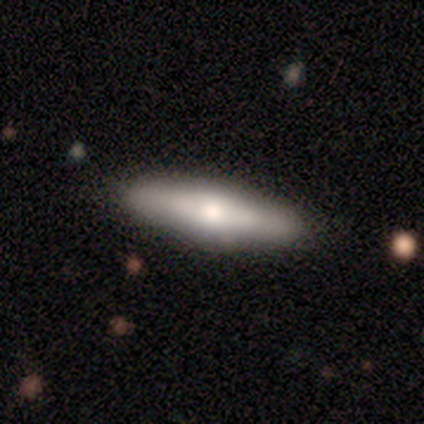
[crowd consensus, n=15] Morphology: type=smooth (47%, tied with featured or disk); roundness=cigar-shaped (86%); merging=none (93%).